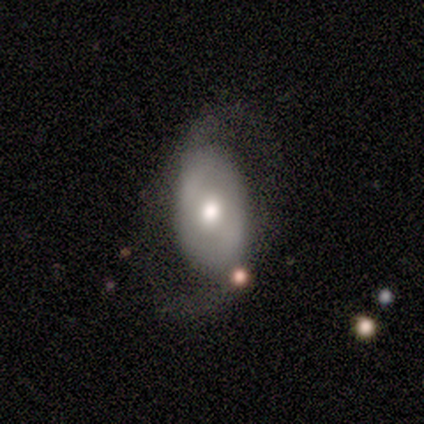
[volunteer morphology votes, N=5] This is clearly a featured or disk galaxy (80%). It is clearly not viewed edge-on (100%). Bar: possibly strong (50%). Spiral arm pattern: likely yes (75%). Spiral arm count: likely 2 (67%). Spiral winding: marginally tight (33%, tied with medium and loose). Central bulge: possibly dominant (50%, tied with moderate). Merging: likely none (60%).